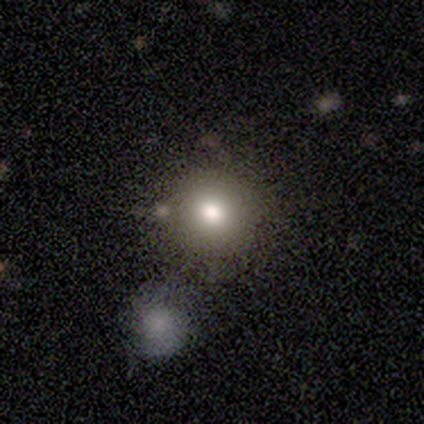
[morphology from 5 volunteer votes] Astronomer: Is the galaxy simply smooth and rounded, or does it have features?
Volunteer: smooth — 60%.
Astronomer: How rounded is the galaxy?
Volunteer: round — 100%.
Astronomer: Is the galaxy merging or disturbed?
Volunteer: none — 100%.